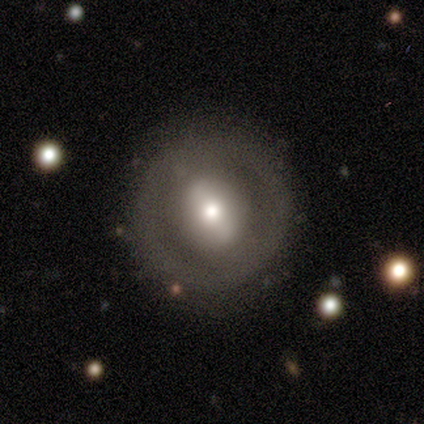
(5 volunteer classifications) Smooth or featured?
  - smooth: 60% *
  - featured or disk: 20%
  - star or artifact: 20%
How rounded?
  - round: 67% *
  - in between: 33%
  - cigar-shaped: 0%
Merging?
  - none: 75% *
  - minor disturbance: 25%
  - major disturbance: 0%
  - merger: 0%